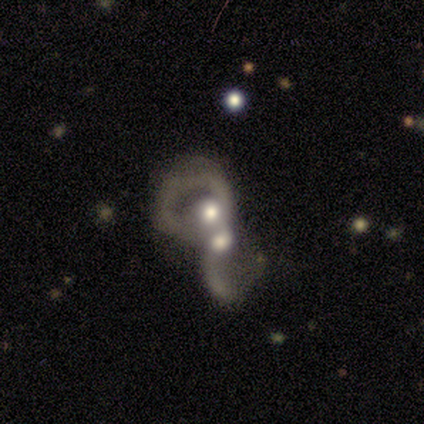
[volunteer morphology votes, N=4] Smooth or featured: featured or disk — 100%
Edge-on disk: no — 100%
Bar: no — 100%
Spiral arms: yes — 75% (no — 25%)
Spiral winding: tight — 67% (medium — 33%)
Spiral arm count: 1 — 67% (2 — 33%)
Bulge size: moderate — 50% (dominant — 25%)
Merging: merger — 100%